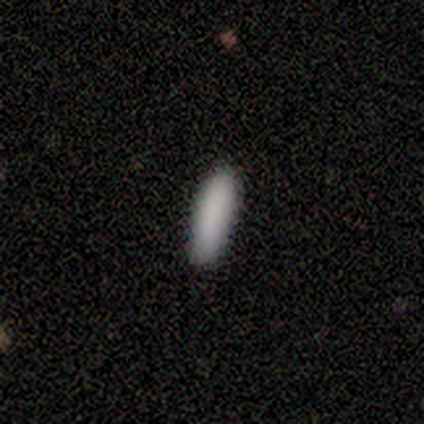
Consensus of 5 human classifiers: This appears to be a smooth galaxy with no disk features (100%) that is cigar-shaped (60%). Merging: none (100%).